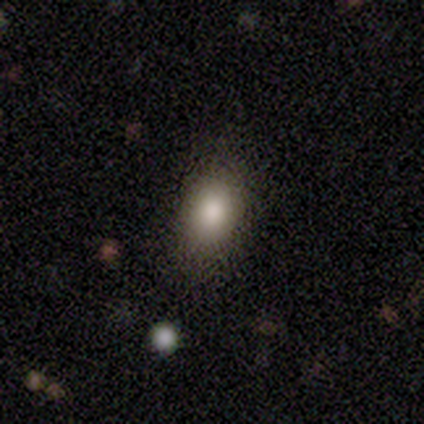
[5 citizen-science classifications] A star or artifact, not a galaxy (60%).

Vote fractions:
- Smooth or featured? star or artifact: 60% / smooth: 40% / featured or disk: 0%